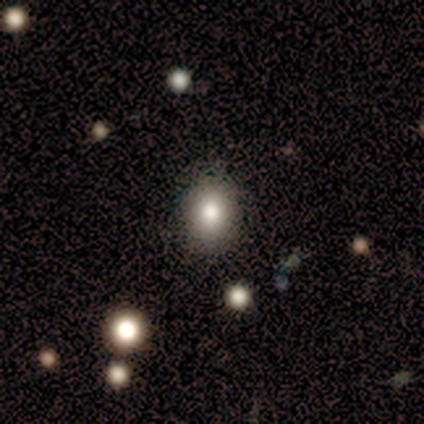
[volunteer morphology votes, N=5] type=smooth (100%); roundness=in between (60%); merging=none (100%).